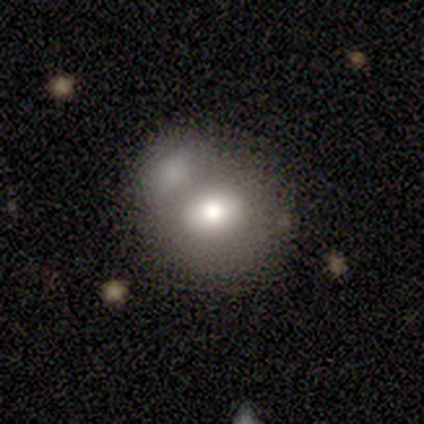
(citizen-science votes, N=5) Smooth or featured: smooth — 40% (tied with featured or disk — 40%)
How rounded: round — 50% (tied with in between — 50%)
Merging: merger — 75% (none — 25%)